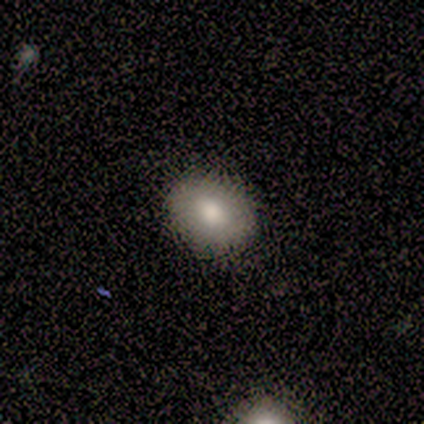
Smooth or featured: smooth — 100%
How rounded: round — 60% (in between — 40%)
Merging: none — 80% (minor disturbance — 20%)